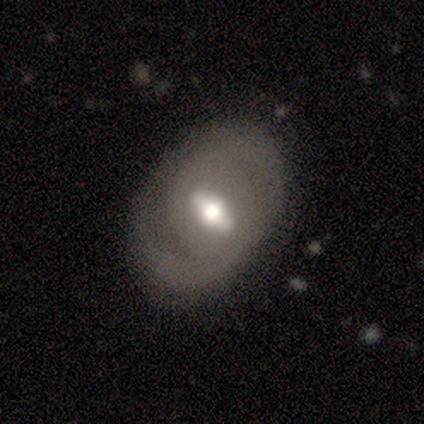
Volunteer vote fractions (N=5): A featured or disk galaxy (60%) with a strong bar (67%), no spiral arms (67%) and a moderate central bulge (67%). Merging: none (80%).